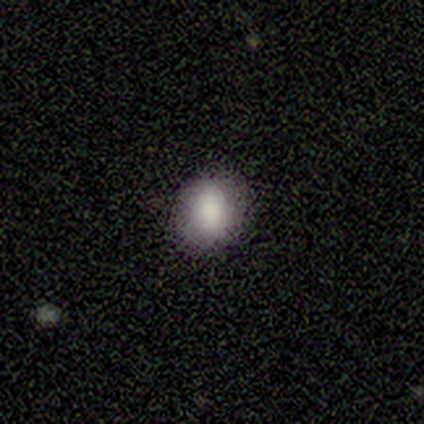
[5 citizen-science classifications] This is clearly a smooth galaxy (100%). How rounded: clearly round (80%). Merging: clearly none (100%).